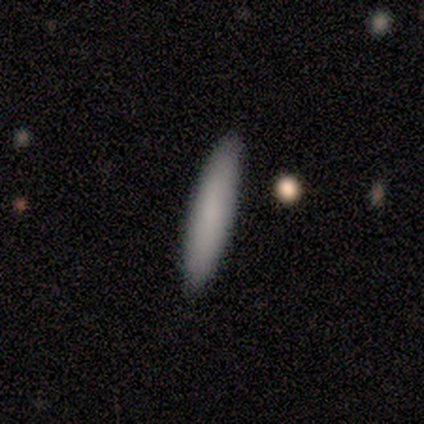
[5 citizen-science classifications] Morphology: type=smooth (60%); roundness=cigar-shaped (100%); merging=none (100%).